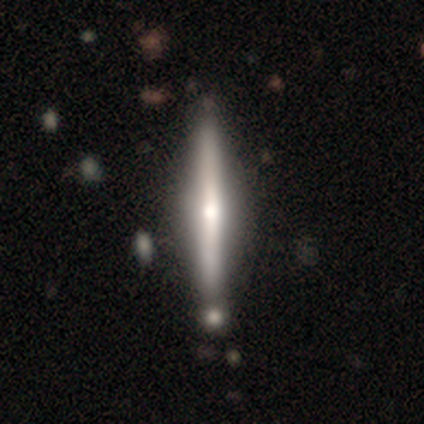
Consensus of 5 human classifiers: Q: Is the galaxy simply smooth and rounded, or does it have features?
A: featured or disk — 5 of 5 (100%).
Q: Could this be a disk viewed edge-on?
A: yes — 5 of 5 (100%).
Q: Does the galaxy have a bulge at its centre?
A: rounded — 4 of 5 (80%).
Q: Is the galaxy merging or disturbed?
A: none — 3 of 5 (60%).